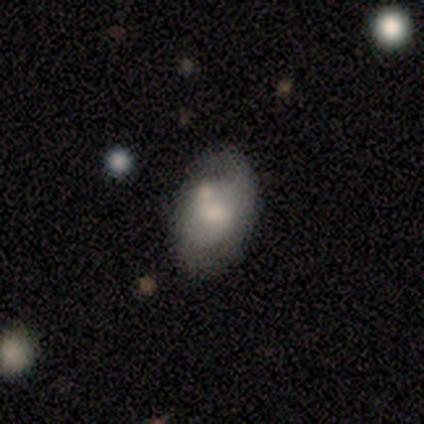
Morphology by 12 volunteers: type=smooth (50%); roundness=in between (83%); merging=none (36%).